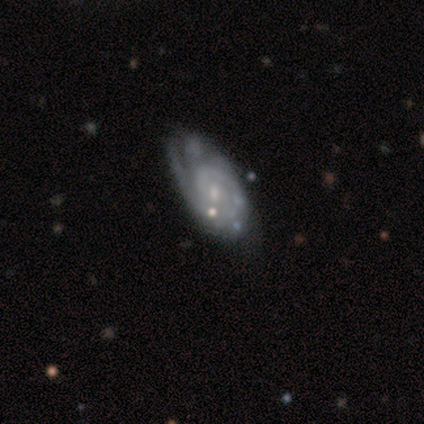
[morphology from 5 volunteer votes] A featured or disk galaxy (100%) with no bar (80%), 3 (40%) tight (80%) spiral arms (100%) and a moderate central bulge (40%, tied with small).

Vote fractions:
- Smooth or featured? featured or disk: 100% / smooth: 0% / star or artifact: 0%
- Edge-on disk? no: 100% / yes: 0%
- Bar? no: 80% / weak: 20% / strong: 0%
- Spiral arms? yes: 100% / no: 0%
- Spiral winding? tight: 80% / medium: 20% / loose: 0%
- Spiral arm count? 3: 40% / 1: 20% / 2: 20% / can't tell: 20% / 4: 0% / more than 4: 0%
- Bulge size? moderate: 40% (tied) / small: 40% (tied) / none: 20% / dominant: 0% / large: 0%
- Merging? none: 60% / major disturbance: 20% / merger: 20% / minor disturbance: 0%